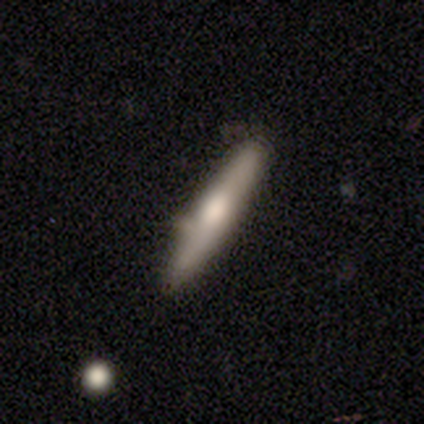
A smooth galaxy with no disk features (49%) that is cigar-shaped (86%). Merging: none (76%).